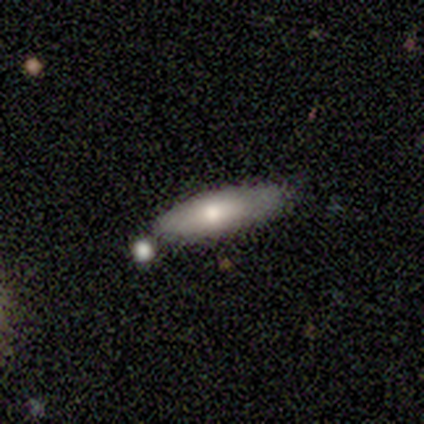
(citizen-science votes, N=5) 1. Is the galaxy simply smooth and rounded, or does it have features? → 80% smooth, 20% featured or disk, 0% star or artifact.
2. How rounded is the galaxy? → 75% cigar-shaped, 25% in between, 0% round.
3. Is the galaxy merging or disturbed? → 80% none, 20% minor disturbance, 0% major disturbance, 0% merger.